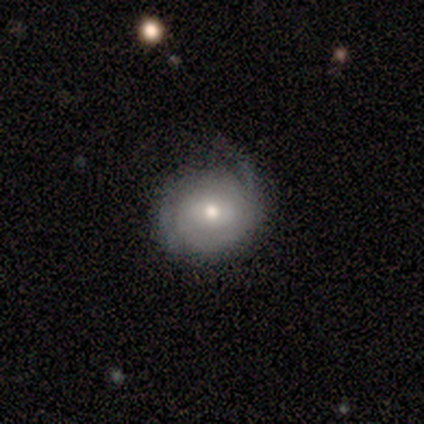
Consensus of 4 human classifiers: smooth_or_featured: smooth (p=0.50) [alt: featured or disk p=0.25]
how_rounded: round (p=1.00)
merging: none (p=0.67) [alt: minor disturbance p=0.33]